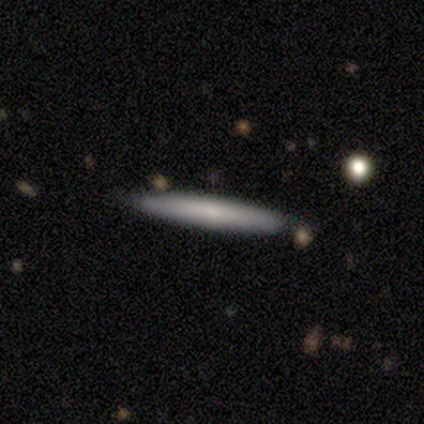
Smooth or featured? 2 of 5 (40%, tied with featured or disk) said smooth. How rounded? 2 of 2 (100%) said cigar-shaped. Merging? 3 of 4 (75%) said none.